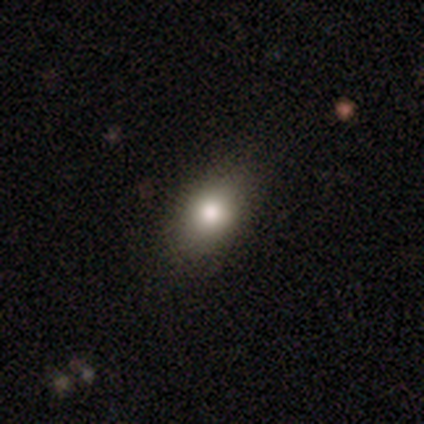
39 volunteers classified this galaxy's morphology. Smooth or featured? smooth (77%)
How rounded? in between (83%)
Merging? none (90%)